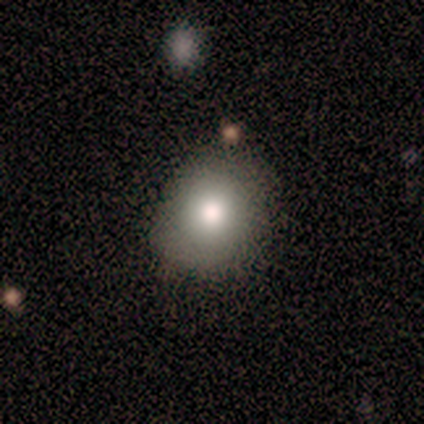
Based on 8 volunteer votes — This appears to be a smooth galaxy with no disk features (88%) that is round (57%). Merging: none (86%).